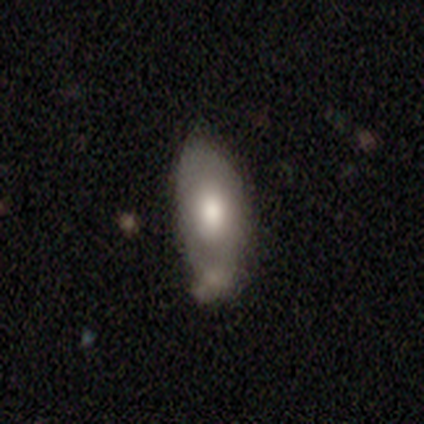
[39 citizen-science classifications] A smooth galaxy with no disk features (67%) that is in between round and cigar-shaped (96%).

Vote fractions:
- Smooth or featured? smooth: 67% / featured or disk: 33% / star or artifact: 0%
- How rounded? in between: 96% / cigar-shaped: 4% / round: 0%
- Merging? minor disturbance: 49% / none: 31% / merger: 13% / major disturbance: 8%